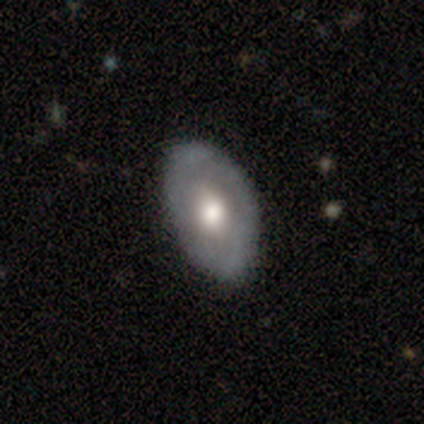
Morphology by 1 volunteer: Smooth or featured: smooth — 100%
How rounded: in between — 100%
Merging: none — 100%